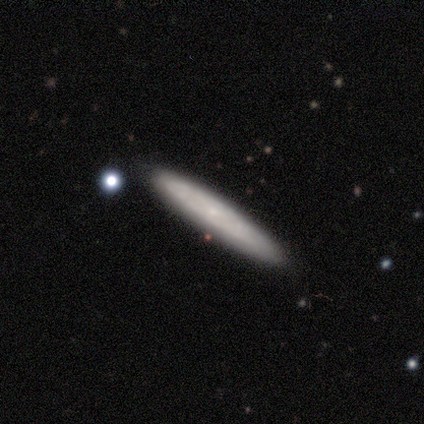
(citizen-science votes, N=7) A smooth galaxy with no disk features (43%, tied with featured or disk) that is cigar-shaped (100%).

Vote fractions:
- Smooth or featured? smooth: 43% (tied) / featured or disk: 43% (tied) / star or artifact: 14%
- How rounded? cigar-shaped: 100% / round: 0% / in between: 0%
- Merging? none: 67% / minor disturbance: 33% / major disturbance: 0% / merger: 0%